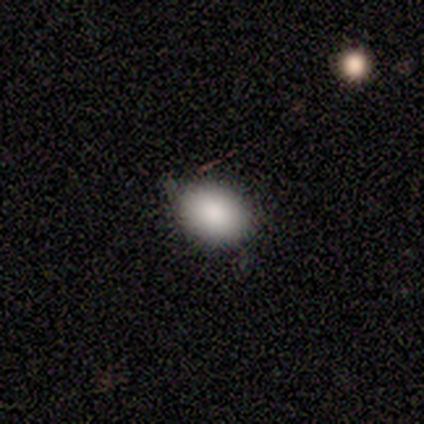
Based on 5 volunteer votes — Smooth or featured? 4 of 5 (80%) said smooth. How rounded? 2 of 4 (50%, tied with in between) said round. Merging? 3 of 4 (75%) said none.